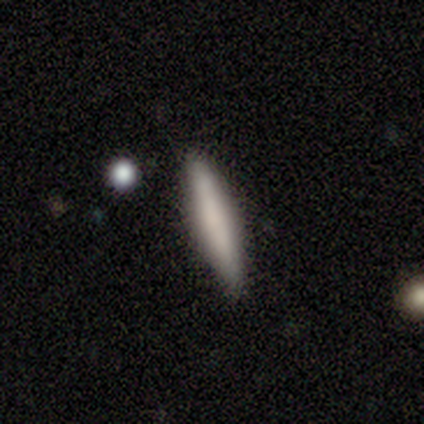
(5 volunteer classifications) Q: Smooth or featured?
A: smooth (80%); runner-up: featured or disk (20%)
Q: How rounded?
A: cigar-shaped (100%)
Q: Merging?
A: none (100%)